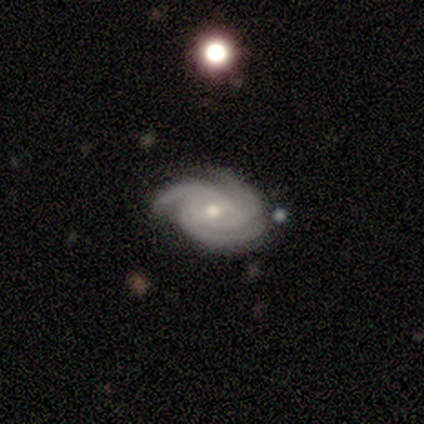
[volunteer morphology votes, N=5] A featured or disk galaxy (100%) with no bar (60%), 3 (100%) tight (80%) spiral arms (100%) and a moderate central bulge (40%, tied with small). Merging: none (100%).